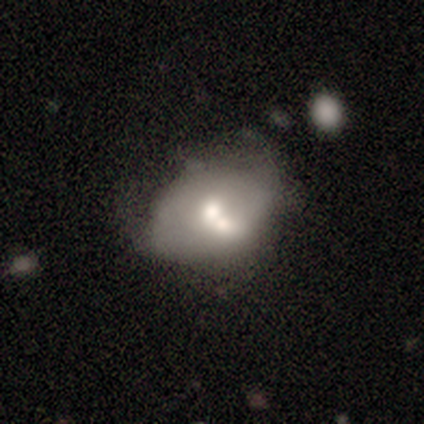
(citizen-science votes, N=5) Volunteers were most divided on "merging": minor disturbance: 60%, none: 20%, merger: 20%, major disturbance: 0%. More confident: how rounded — in between (100%); smooth or featured — smooth (80%).